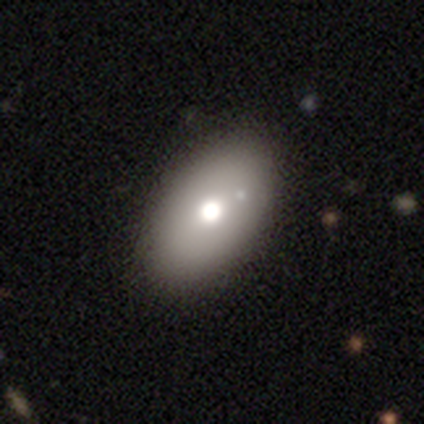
This appears to be a smooth galaxy with no disk features (80%) that is in between round and cigar-shaped (100%). Merging: none (80%).